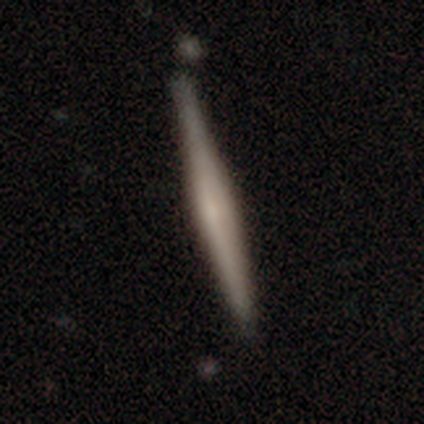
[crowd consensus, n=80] smooth_or_featured: featured or disk (p=0.68) [alt: smooth p=0.30]
disk_edge_on: yes (p=0.98) [alt: no p=0.02]
edge_on_bulge: rounded (p=0.51) [alt: none p=0.36]
merging: none (p=0.37) [alt: minor disturbance p=0.10]